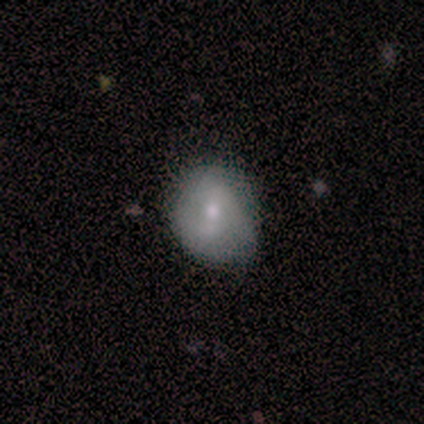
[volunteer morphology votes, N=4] This is possibly a smooth galaxy (50%, tied with featured or disk). How rounded: possibly round (50%, tied with in between). Merging: likely none (75%).